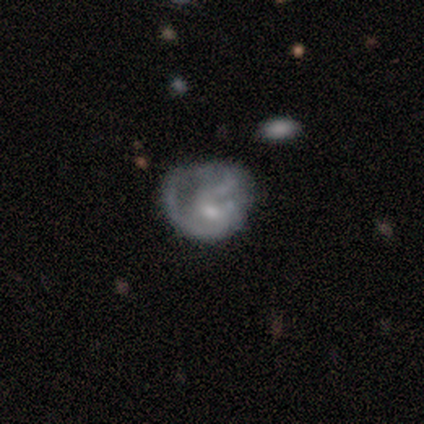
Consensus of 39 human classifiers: smooth_or_featured: featured or disk (p=0.79) [alt: smooth p=0.18]
disk_edge_on: no (p=1.00)
bar: no (p=0.58) [alt: weak p=0.39]
has_spiral_arms: yes (p=0.71) [alt: no p=0.29]
spiral_winding: tight (p=0.41) [alt: loose p=0.32]
spiral_arm_count: can't tell (p=0.41) [alt: 2 p=0.32]
bulge_size: small (p=0.39) [alt: none p=0.32]
merging: major disturbance (p=0.42) [alt: none p=0.32]